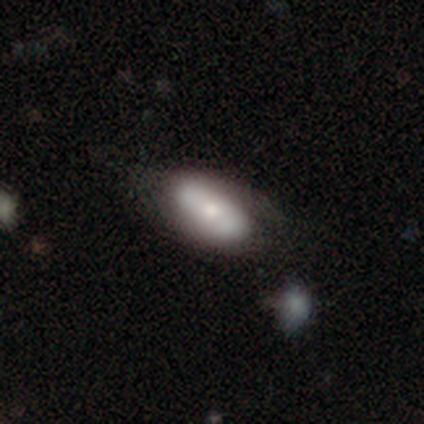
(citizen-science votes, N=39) A smooth galaxy with no disk features (54%) that is in between round and cigar-shaped (81%).

Vote fractions:
- Smooth or featured? smooth: 54% / featured or disk: 44% / star or artifact: 3%
- How rounded? in between: 81% / round: 10% / cigar-shaped: 10%
- Merging? none: 50% / minor disturbance: 39% / major disturbance: 11% / merger: 0%